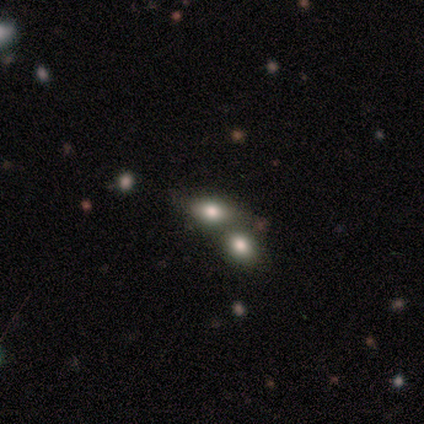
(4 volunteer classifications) Q: Smooth or featured?
A: smooth (75%); runner-up: featured or disk (25%)
Q: How rounded?
A: in between (67%); runner-up: round (33%)
Q: Merging?
A: merger (75%); runner-up: none (25%)